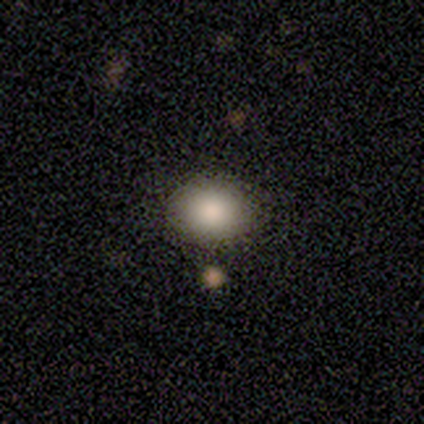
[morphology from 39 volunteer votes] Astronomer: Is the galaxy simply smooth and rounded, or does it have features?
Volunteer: smooth — 82%.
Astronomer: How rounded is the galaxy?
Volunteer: round — 62%.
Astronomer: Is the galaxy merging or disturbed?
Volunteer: none — 43%.